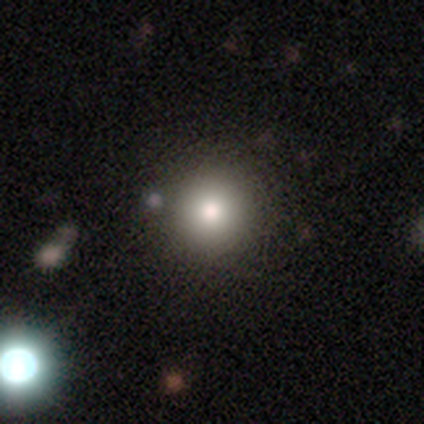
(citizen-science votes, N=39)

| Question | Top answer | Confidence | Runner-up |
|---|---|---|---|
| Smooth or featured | smooth | 77% | star or artifact (18%) |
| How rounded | round | 93% | in between (7%) |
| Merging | none | 47% | merger (9%) |